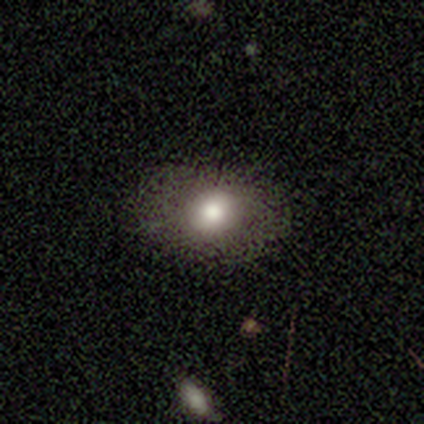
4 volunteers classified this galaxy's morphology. type=smooth (100%); roundness=round (50%, tied with in between); merging=none (75%).